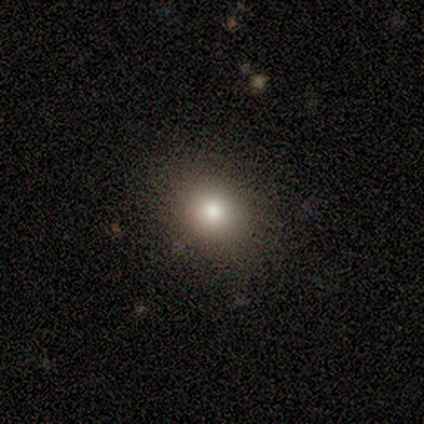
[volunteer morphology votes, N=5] Volunteers were most divided on "how rounded": round: 60%, in between: 20%, cigar-shaped: 20%. More confident: smooth or featured — smooth (100%); merging — none (80%).